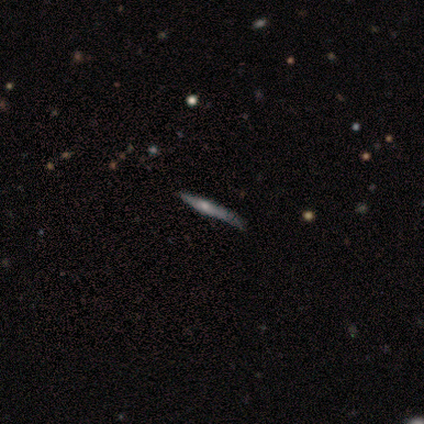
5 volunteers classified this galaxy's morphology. type=featured or disk (60%); edge-on=yes (100%); edge-on bulge=rounded (67%); merging=none (80%).